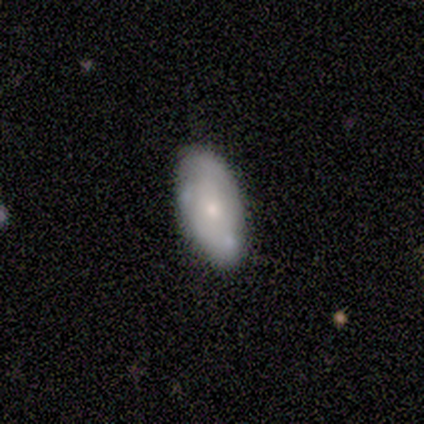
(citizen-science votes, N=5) smooth_or_featured: featured or disk (p=0.80) [alt: star or artifact p=0.20]
disk_edge_on: no (p=1.00)
bar: no (p=1.00)
has_spiral_arms: no (p=0.75) [alt: yes p=0.25]
bulge_size: moderate (p=0.50) [tied with: small p=0.50]
merging: none (p=0.75) [alt: minor disturbance p=0.25]